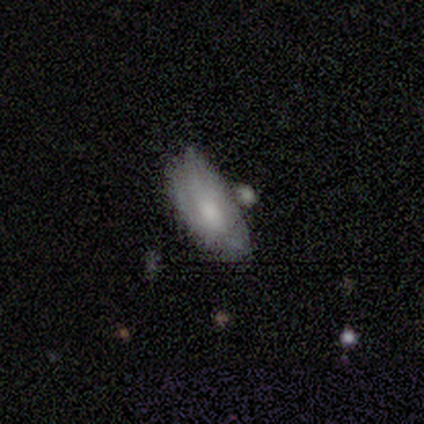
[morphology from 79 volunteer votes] Smooth or featured: smooth — 47% (tied with featured or disk — 47%)
How rounded: in between — 89% (round — 5%)
Merging: none — 22% (minor disturbance — 18%)